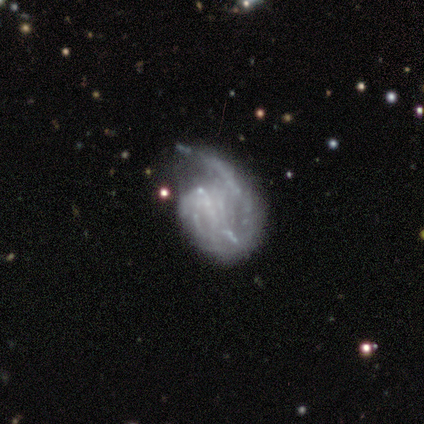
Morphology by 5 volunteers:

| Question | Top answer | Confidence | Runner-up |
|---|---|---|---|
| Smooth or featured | featured or disk | 80% | star or artifact (20%) |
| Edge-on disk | no | 100% | — |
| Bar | no | 50% | strong (25%) |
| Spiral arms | yes | 100% | — |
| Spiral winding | loose | 50% | tight (25%) |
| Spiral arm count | can't tell | 50% | 1 (25%) |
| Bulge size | none | 100% | — |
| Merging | minor disturbance | 50% | none (25%) |